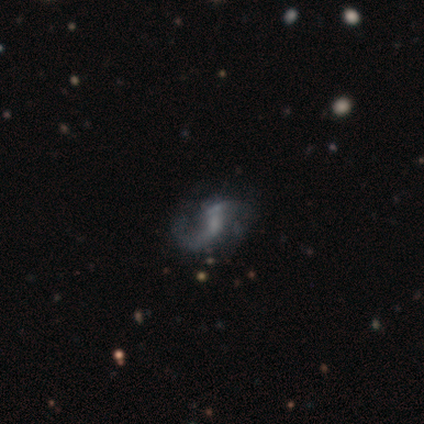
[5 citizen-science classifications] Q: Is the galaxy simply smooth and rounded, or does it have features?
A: featured or disk — 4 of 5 (80%).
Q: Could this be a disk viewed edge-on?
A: no — 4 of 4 (100%).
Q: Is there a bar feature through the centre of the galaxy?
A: weak — 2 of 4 (50%).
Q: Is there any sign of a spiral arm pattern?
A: yes — 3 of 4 (75%).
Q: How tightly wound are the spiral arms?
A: loose — 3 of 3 (100%).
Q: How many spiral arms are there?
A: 2 — 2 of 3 (67%).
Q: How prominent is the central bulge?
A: small — 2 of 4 (50%).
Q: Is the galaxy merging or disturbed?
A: none — 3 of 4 (75%).